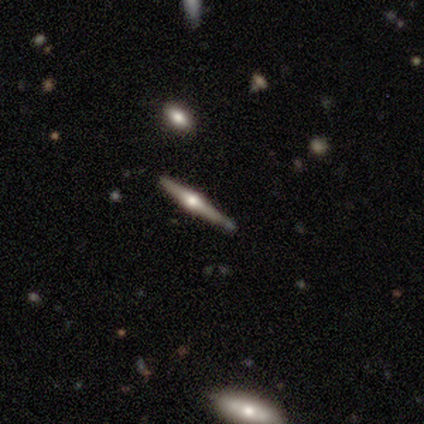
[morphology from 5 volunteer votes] Smooth or featured: featured or disk — 100%
Edge-on disk: yes — 100%
Edge-on bulge: rounded — 80% (none — 20%)
Merging: none — 100%